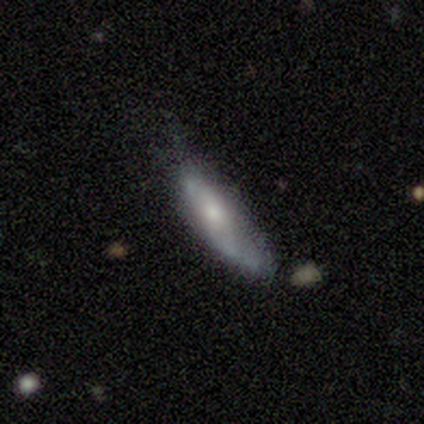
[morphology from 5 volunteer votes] smooth 80%, featured or disk 20%, star or artifact 0%. Down the decision tree: how rounded — in between (50%, tied with cigar-shaped); merging — minor disturbance (60%).